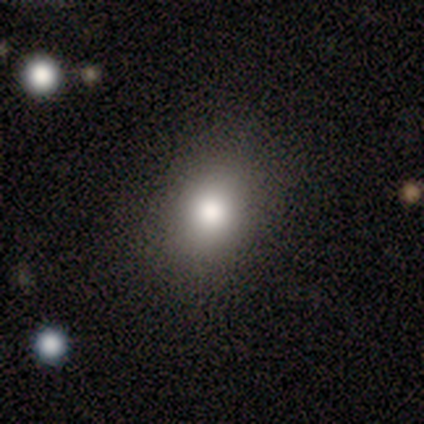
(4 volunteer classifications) Smooth or featured? 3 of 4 (75%) said smooth. How rounded? 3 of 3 (100%) said round. Merging? 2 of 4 (50%, tied with minor disturbance) said none.